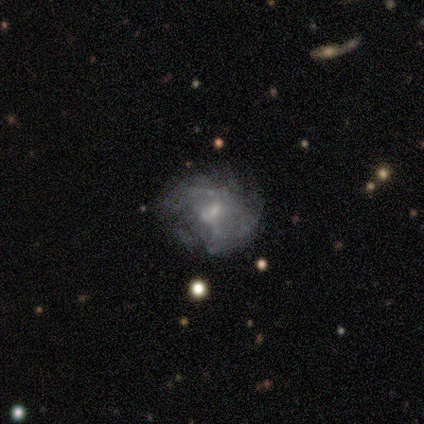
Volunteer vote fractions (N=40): This is likely a featured or disk galaxy (60%). It is clearly not viewed edge-on (96%). Bar: likely no (74%). Spiral arm pattern: possibly no (52%). Central bulge: likely small (74%). Merging: likely none (60%).